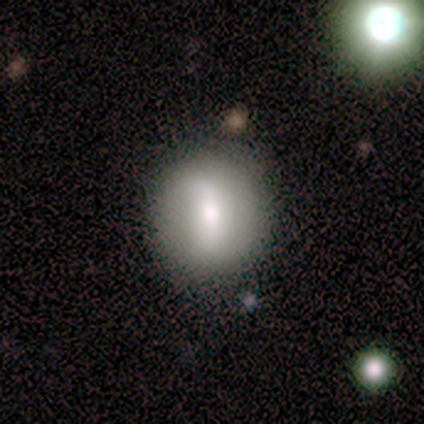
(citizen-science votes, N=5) Volunteers were most divided on "smooth or featured": featured or disk: 60%, smooth: 40%, star or artifact: 0%. More confident: edge-on disk — no (100%); merging — none (80%); bar — strong (67%); spiral arms — no (67%); bulge size — moderate (67%).